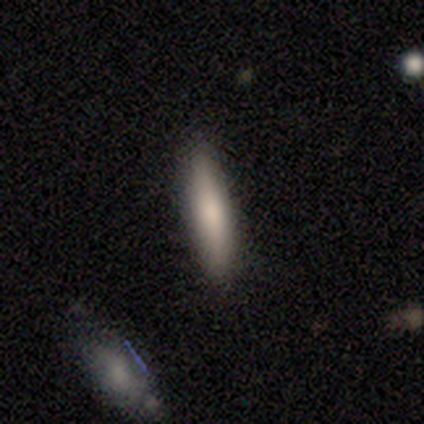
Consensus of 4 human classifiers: smooth 100%, featured or disk 0%, star or artifact 0%. Down the decision tree: how rounded — cigar-shaped (100%); merging — none (100%).